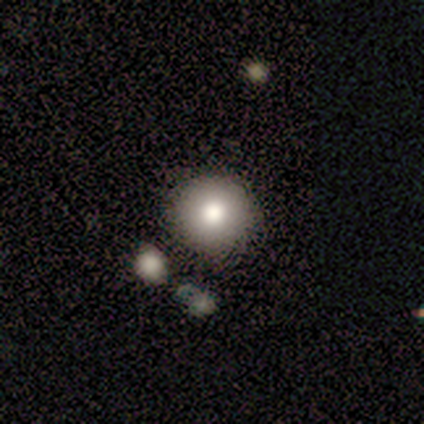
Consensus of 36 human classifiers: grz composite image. It shows a smooth galaxy with no disk features (81%) that is round (100%). Merging: none (82%).